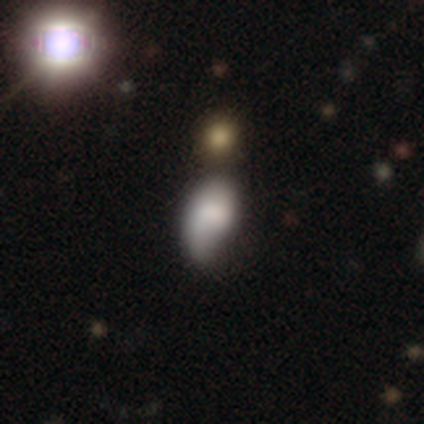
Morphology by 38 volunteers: This is likely a smooth galaxy (61%). How rounded: clearly in between (83%). Merging: marginally none (39%, tied with minor disturbance).